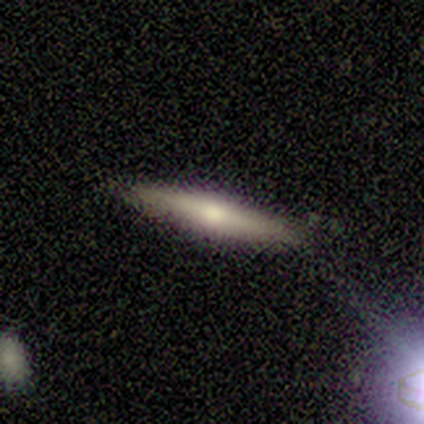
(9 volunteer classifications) Smooth or featured? smooth (44%, tied with featured or disk)
How rounded? cigar-shaped (75%)
Merging? none (100%)